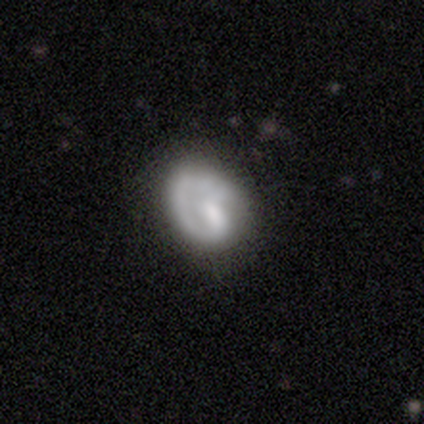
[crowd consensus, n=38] Volunteers were most divided on "bar": no: 48%, weak: 44%, strong: 8%. Remaining: edge-on disk — no (96%); spiral arm count — 1 (90%); spiral arms — yes (80%); smooth or featured — featured or disk (68%); merging — none (55%); spiral winding — tight (40%); bulge size — small (36%).